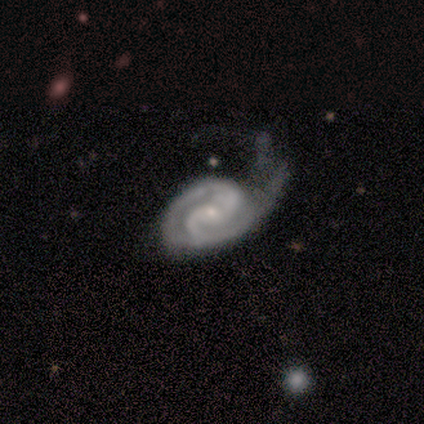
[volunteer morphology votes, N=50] A featured or disk galaxy (82%) with no bar (57%), 2 (79%) tight (59%) spiral arms (98%) and a small central bulge (80%).

Vote fractions:
- Smooth or featured? featured or disk: 82% / star or artifact: 14% / smooth: 4%
- Edge-on disk? no: 98% / yes: 2%
- Bar? no: 57% / weak: 32% / strong: 10%
- Spiral arms? yes: 98% / no: 2%
- Spiral winding? tight: 59% / medium: 31% / loose: 10%
- Spiral arm count? 2: 79% / 1: 8% / 3: 8% / 4: 3% / can't tell: 3% / more than 4: 0%
- Bulge size? small: 80% / moderate: 20% / dominant: 0% / large: 0% / none: 0%
- Merging? major disturbance: 53% / minor disturbance: 26% / none: 14% / merger: 7%